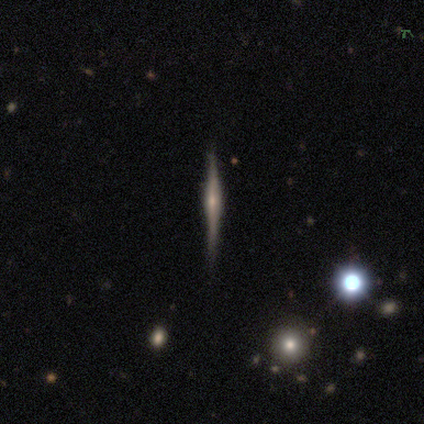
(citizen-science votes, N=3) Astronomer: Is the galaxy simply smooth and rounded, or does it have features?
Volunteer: featured or disk — 67%.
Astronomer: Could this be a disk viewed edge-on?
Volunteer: yes — 100%.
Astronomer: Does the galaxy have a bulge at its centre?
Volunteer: rounded — 100%.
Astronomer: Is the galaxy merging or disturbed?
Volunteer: none — 100%.